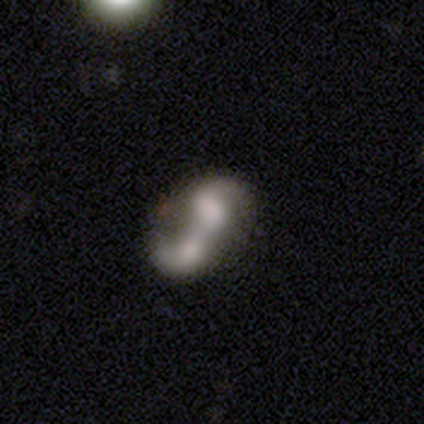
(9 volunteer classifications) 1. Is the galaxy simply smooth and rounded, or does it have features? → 56% featured or disk, 33% smooth, 11% star or artifact.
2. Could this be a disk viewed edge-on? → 100% no, 0% yes.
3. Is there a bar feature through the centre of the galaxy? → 40% strong (tied), 40% no (tied), 20% weak.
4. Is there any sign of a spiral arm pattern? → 60% yes, 40% no.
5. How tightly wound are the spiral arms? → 67% loose, 33% tight, 0% medium.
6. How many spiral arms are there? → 100% 2, 0% 1, 0% 3, 0% 4, 0% more than 4, 0% can't tell.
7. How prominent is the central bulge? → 60% none, 20% dominant, 20% large, 0% moderate, 0% small.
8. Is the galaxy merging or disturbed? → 50% merger, 25% none, 12% minor disturbance, 12% major disturbance.